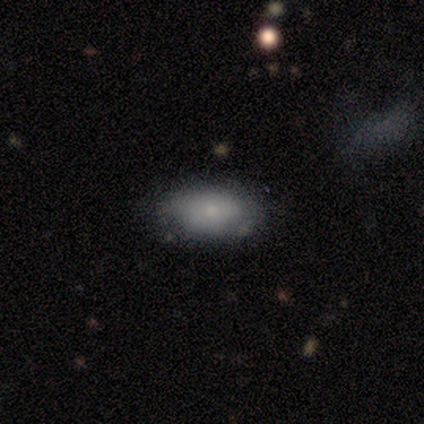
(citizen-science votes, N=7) Overall: smooth (86%). How rounded: in between (100%). Merging: none (86%).